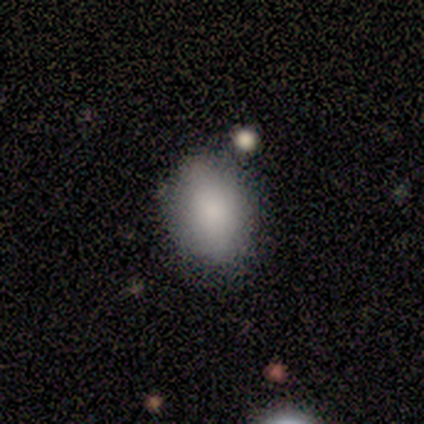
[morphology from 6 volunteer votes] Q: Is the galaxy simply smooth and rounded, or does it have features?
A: smooth — 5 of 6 (83%).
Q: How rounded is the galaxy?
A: in between — 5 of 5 (100%).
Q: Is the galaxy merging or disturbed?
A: none — 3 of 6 (50%).